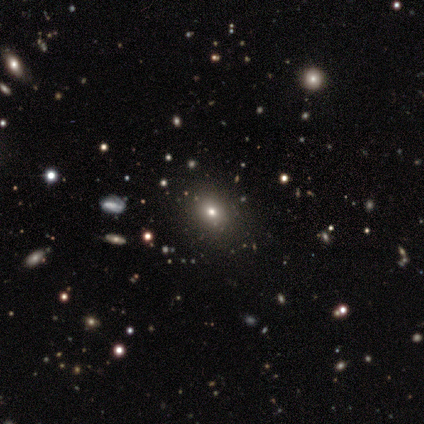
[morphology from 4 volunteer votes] Smooth or featured: smooth — 75% (star or artifact — 25%)
How rounded: round — 67% (in between — 33%)
Merging: none — 100%